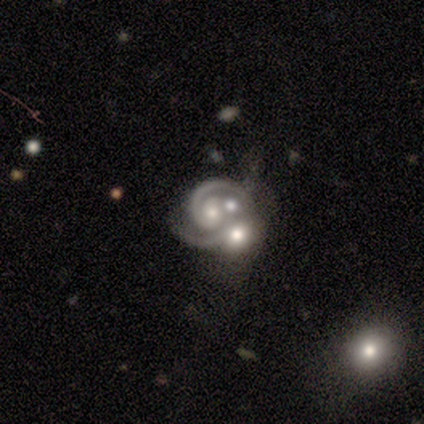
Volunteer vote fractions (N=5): Smooth or featured: featured or disk — 80% (smooth — 20%)
Edge-on disk: no — 100%
Bar: no — 100%
Spiral arms: yes — 100%
Spiral winding: medium — 75% (tight — 25%)
Spiral arm count: 2 — 75% (can't tell — 25%)
Bulge size: moderate — 50% (large — 25%)
Merging: merger — 80% (minor disturbance — 20%)